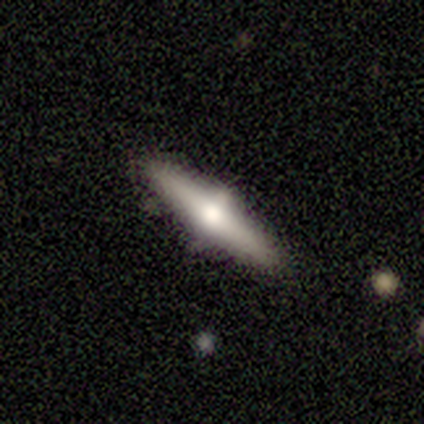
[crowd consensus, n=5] Overall: smooth (60%; featured or disk 40%). How rounded: cigar-shaped (100%). Merging: none (80%).